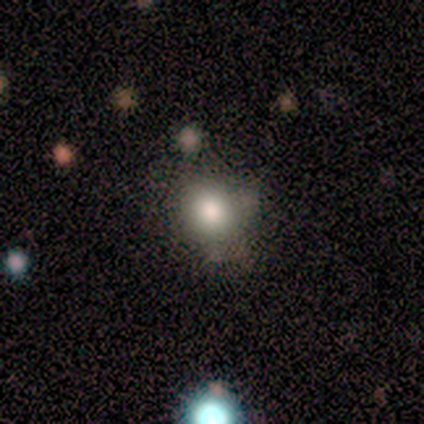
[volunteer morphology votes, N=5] type=smooth (80%); roundness=round (75%); merging=none (80%).